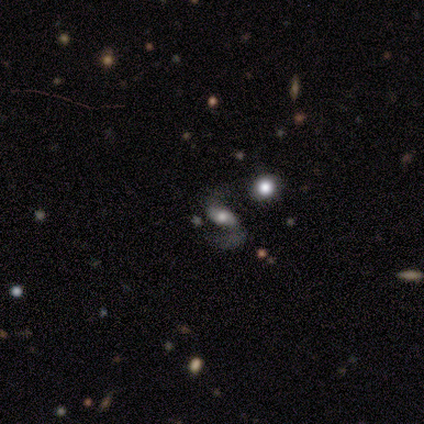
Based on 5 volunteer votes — Smooth or featured? featured or disk (80%)
Edge-on disk? no (100%)
Bar? weak (50%)
Spiral arms? yes (100%)
Spiral winding? loose (75%)
Spiral arm count? 2 (100%)
Bulge size? large (50%)
Merging? none (60%)